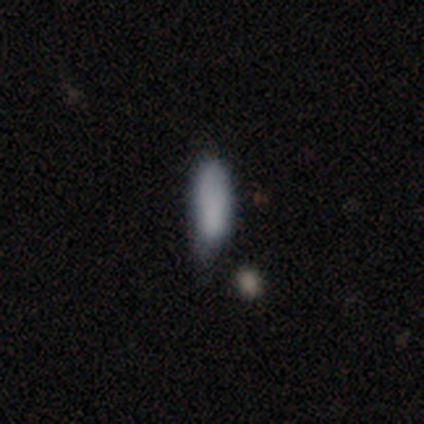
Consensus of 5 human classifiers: Q: Smooth or featured?
A: smooth (80%); runner-up: star or artifact (20%)
Q: How rounded?
A: in between (75%); runner-up: cigar-shaped (25%)
Q: Merging?
A: none (25%); tied with: minor disturbance (25%); major disturbance (25%); merger (25%)